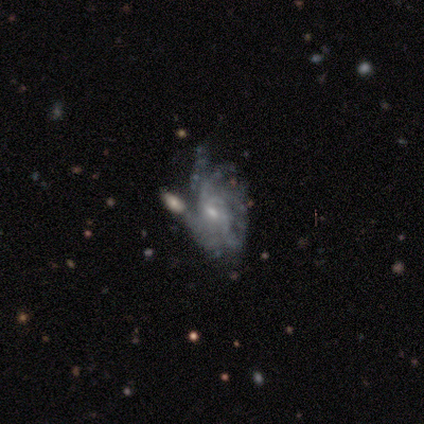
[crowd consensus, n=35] A featured or disk galaxy (89%) with a weak bar (57%), tight (44%) spiral arms (83%) and a small central bulge (70%). Merging: none (36%).